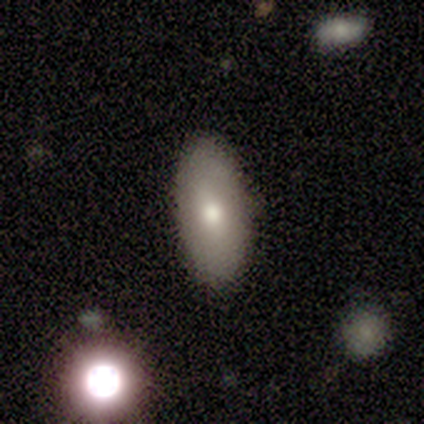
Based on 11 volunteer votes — smooth_or_featured: smooth (p=0.64) [alt: featured or disk p=0.18]
how_rounded: in between (p=1.00)
merging: none (p=1.00)